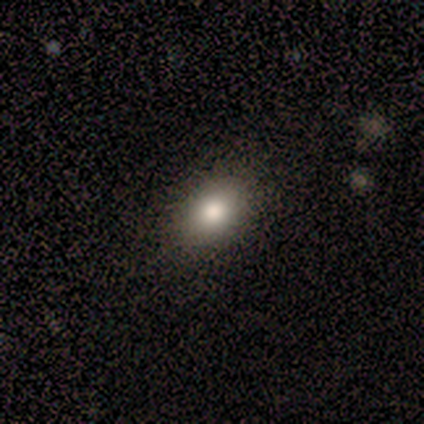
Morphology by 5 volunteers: smooth 60%, star or artifact 40%, featured or disk 0%. Down the decision tree: how rounded — in between (100%); merging — none (100%).